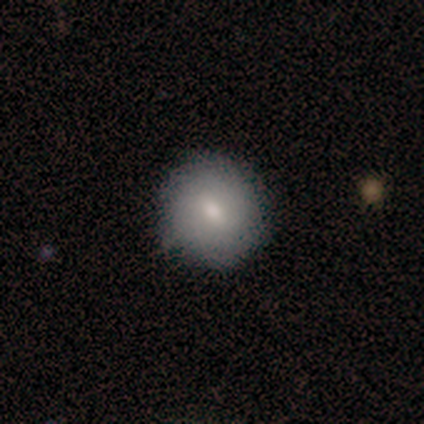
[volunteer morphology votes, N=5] A smooth galaxy with no disk features (80%) that is round (100%).

Vote fractions:
- Smooth or featured? smooth: 80% / featured or disk: 20% / star or artifact: 0%
- How rounded? round: 100% / in between: 0% / cigar-shaped: 0%
- Merging? none: 100% / minor disturbance: 0% / major disturbance: 0% / merger: 0%